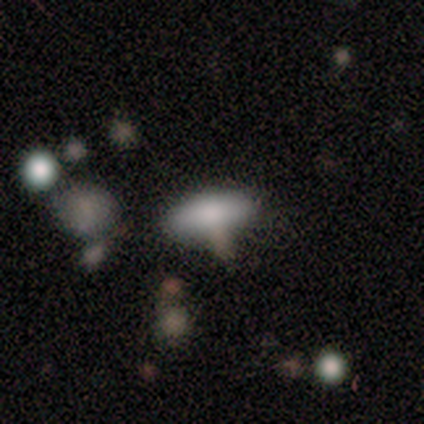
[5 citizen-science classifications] Volunteers were most divided on "merging": none: 50%, minor disturbance: 25%, major disturbance: 25%, merger: 0%. More confident: how rounded — in between (67%); smooth or featured — smooth (60%).